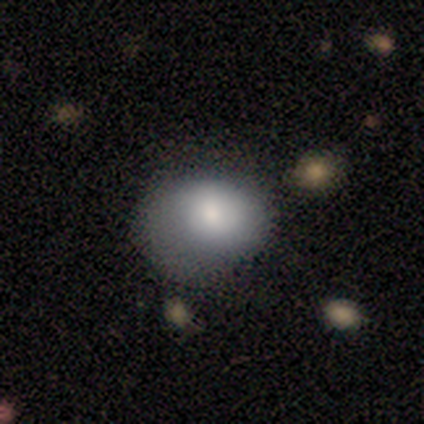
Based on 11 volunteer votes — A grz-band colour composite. It shows a smooth galaxy with no disk features (73%) that is round (62%). Merging: none (40%).